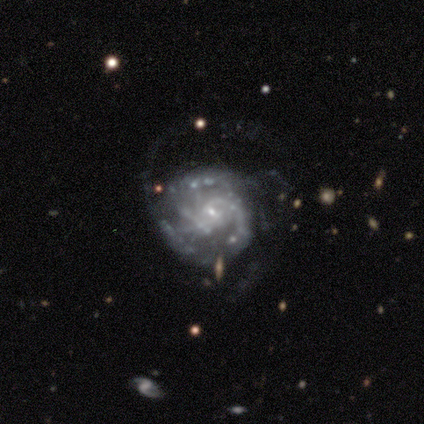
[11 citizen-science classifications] Volunteers were most divided on "spiral winding": tight: 44%, medium: 33%, loose: 22%. Remaining: edge-on disk — no (100%); smooth or featured — featured or disk (91%); spiral arms — yes (90%); bulge size — small (90%); bar — no (60%); merging — major disturbance (60%); spiral arm count — can't tell (44%).